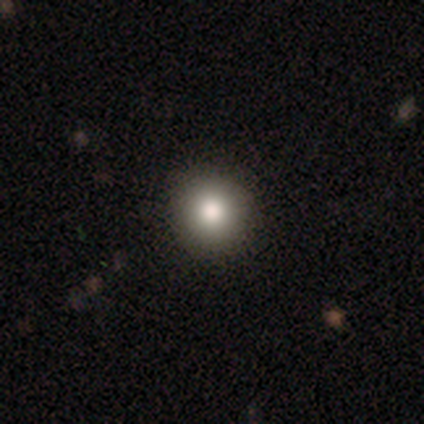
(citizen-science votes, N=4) Consensus on every question: smooth or featured — smooth (100%); how rounded — round (100%); merging — none (100%).